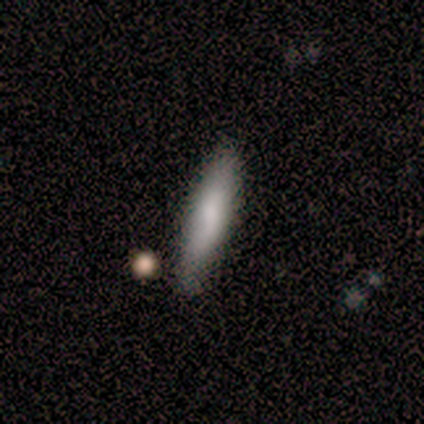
Q: Smooth or featured?
A: smooth (60%); runner-up: featured or disk (20%)
Q: How rounded?
A: cigar-shaped (67%); runner-up: in between (33%)
Q: Merging?
A: none (75%); runner-up: minor disturbance (25%)